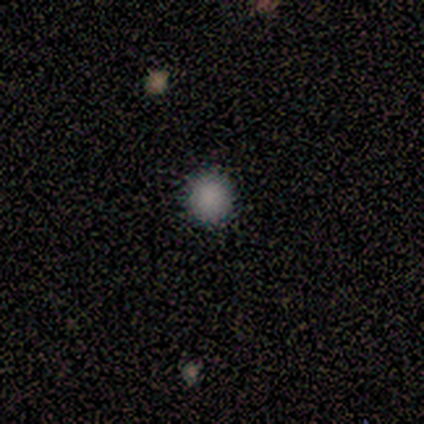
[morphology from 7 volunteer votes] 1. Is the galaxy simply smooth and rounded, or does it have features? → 86% smooth, 14% star or artifact, 0% featured or disk.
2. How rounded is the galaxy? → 100% round, 0% in between, 0% cigar-shaped.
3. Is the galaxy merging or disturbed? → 100% none, 0% minor disturbance, 0% major disturbance, 0% merger.